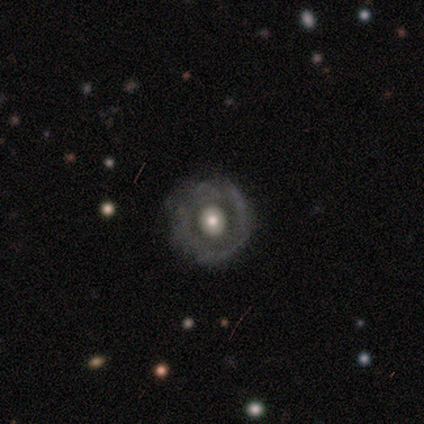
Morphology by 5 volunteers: smooth_or_featured: featured or disk (p=0.60) [alt: smooth p=0.20]
disk_edge_on: no (p=1.00)
bar: no (p=1.00)
has_spiral_arms: no (p=1.00)
bulge_size: large (p=0.67) [alt: moderate p=0.33]
merging: none (p=0.50) [alt: minor disturbance p=0.25]